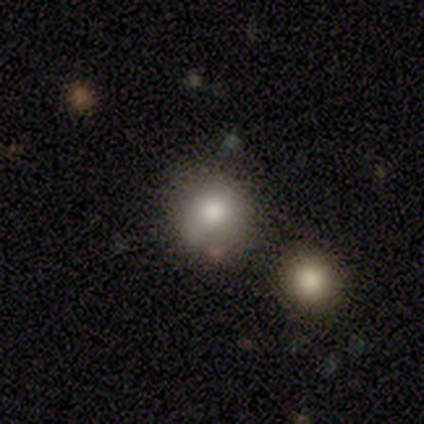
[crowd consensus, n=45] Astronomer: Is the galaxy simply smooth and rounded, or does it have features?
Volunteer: smooth — 82%.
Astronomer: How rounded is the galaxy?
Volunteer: round — 92%.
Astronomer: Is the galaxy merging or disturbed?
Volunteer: none — 73%.